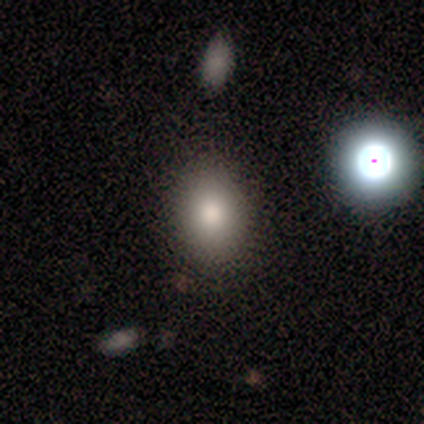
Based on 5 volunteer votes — Smooth or featured? smooth (100%)
How rounded? in between (60%)
Merging? none (60%)